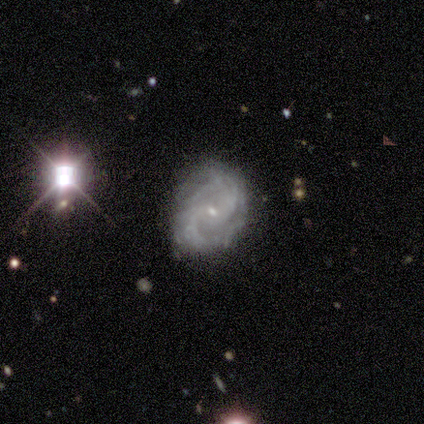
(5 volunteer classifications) A featured or disk galaxy (80%) with no bar (50%), 2 (67%) medium (100%) spiral arms (75%) and a small central bulge (75%).

Vote fractions:
- Smooth or featured? featured or disk: 80% / smooth: 20% / star or artifact: 0%
- Edge-on disk? no: 100% / yes: 0%
- Bar? no: 50% / strong: 25% / weak: 25%
- Spiral arms? yes: 75% / no: 25%
- Spiral winding? medium: 100% / tight: 0% / loose: 0%
- Spiral arm count? 2: 67% / 3: 33% / 1: 0% / 4: 0% / more than 4: 0% / can't tell: 0%
- Bulge size? small: 75% / large: 25% / dominant: 0% / moderate: 0% / none: 0%
- Merging? minor disturbance: 60% / none: 40% / major disturbance: 0% / merger: 0%